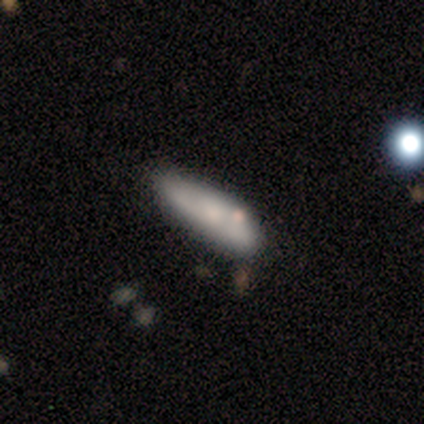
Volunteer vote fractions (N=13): Smooth or featured? smooth (77%)
How rounded? in between (70%)
Merging? none (69%)